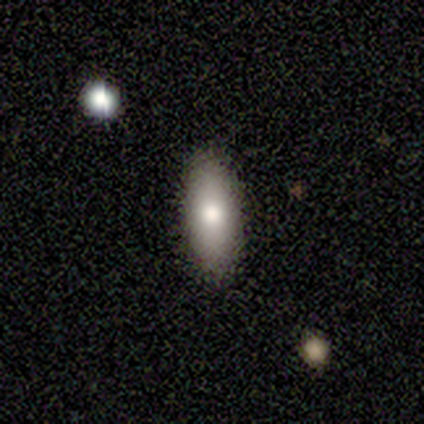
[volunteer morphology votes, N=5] Q: Smooth or featured?
A: smooth (80%); runner-up: featured or disk (20%)
Q: How rounded?
A: in between (100%)
Q: Merging?
A: none (80%); runner-up: minor disturbance (20%)